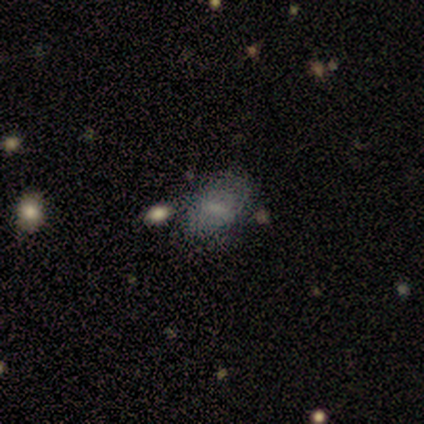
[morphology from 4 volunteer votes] Smooth or featured: featured or disk — 75% (star or artifact — 25%)
Edge-on disk: no — 100%
Bar: no — 100%
Spiral arms: no — 100%
Bulge size: none — 67% (moderate — 33%)
Merging: none — 100%